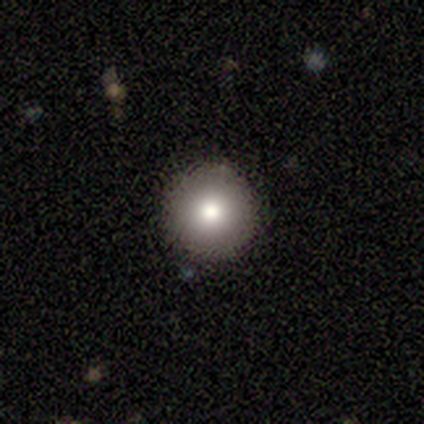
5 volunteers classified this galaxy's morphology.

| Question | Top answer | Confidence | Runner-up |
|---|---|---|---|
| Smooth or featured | smooth | 80% | star or artifact (20%) |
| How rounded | round | 100% | — |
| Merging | none | 100% | — |